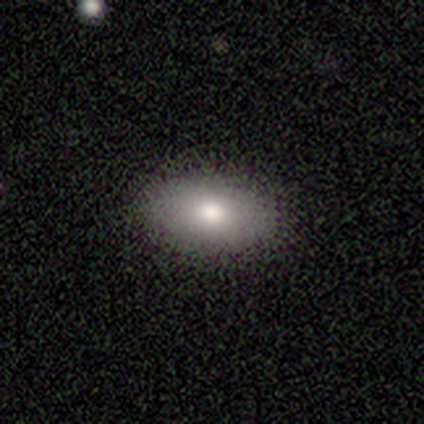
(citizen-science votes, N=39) smooth_or_featured: smooth (p=0.87) [alt: star or artifact p=0.10]
how_rounded: in between (p=0.97) [alt: round p=0.03]
merging: none (p=0.97) [alt: major disturbance p=0.03]